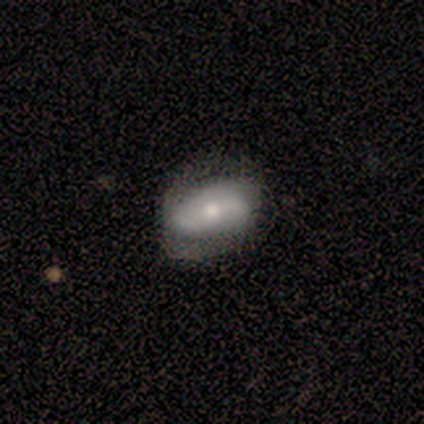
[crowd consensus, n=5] Q: Smooth or featured?
A: featured or disk (60%); runner-up: smooth (40%)
Q: Edge-on disk?
A: no (100%)
Q: Bar?
A: no (100%)
Q: Spiral arms?
A: no (67%); runner-up: yes (33%)
Q: Bulge size?
A: moderate (67%); runner-up: small (33%)
Q: Merging?
A: none (40%); runner-up: minor disturbance (20%)